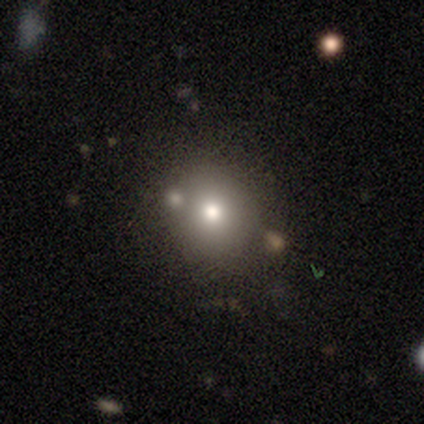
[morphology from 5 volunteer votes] Q: Smooth or featured?
A: smooth (80%); runner-up: star or artifact (20%)
Q: How rounded?
A: round (100%)
Q: Merging?
A: none (100%)